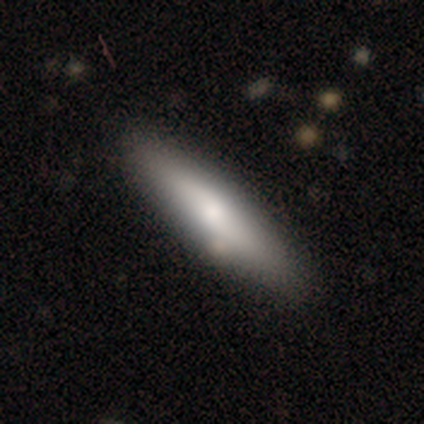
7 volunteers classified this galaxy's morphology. type=smooth (100%); roundness=cigar-shaped (86%); merging=none (100%).